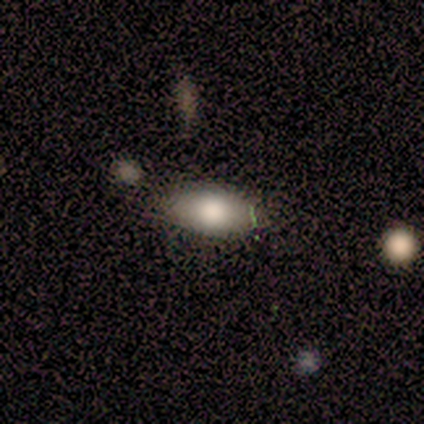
Q: Smooth or featured?
A: smooth (88%); runner-up: star or artifact (12%)
Q: How rounded?
A: in between (100%)
Q: Merging?
A: none (86%); runner-up: minor disturbance (14%)